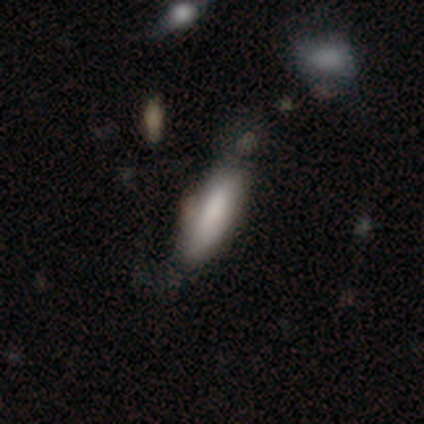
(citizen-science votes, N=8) Smooth or featured? 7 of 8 (88%) said smooth. How rounded? 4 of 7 (57%) said in between. Merging? 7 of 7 (100%) said none.